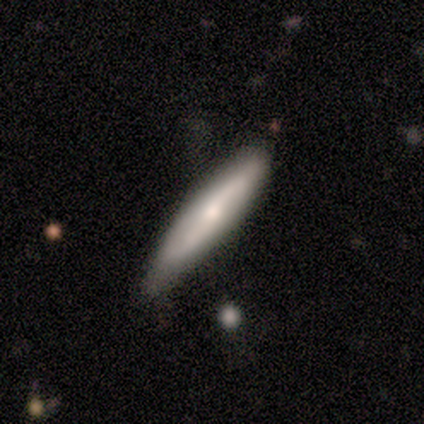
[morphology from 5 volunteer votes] smooth_or_featured: smooth (p=0.80) [alt: featured or disk p=0.20]
how_rounded: cigar-shaped (p=1.00)
merging: none (p=1.00)